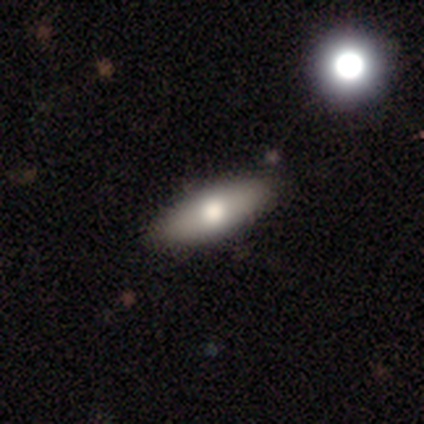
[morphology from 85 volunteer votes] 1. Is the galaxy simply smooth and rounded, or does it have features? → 69% smooth, 24% featured or disk, 7% star or artifact.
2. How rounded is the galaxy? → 69% in between, 31% cigar-shaped, 0% round.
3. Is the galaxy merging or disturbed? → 89% none, 5% minor disturbance, 4% merger, 3% major disturbance.